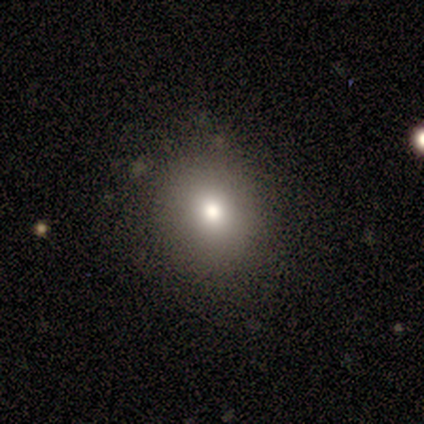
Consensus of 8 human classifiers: Q: Smooth or featured?
A: smooth (88%); runner-up: star or artifact (12%)
Q: How rounded?
A: round (86%); runner-up: in between (14%)
Q: Merging?
A: none (100%)